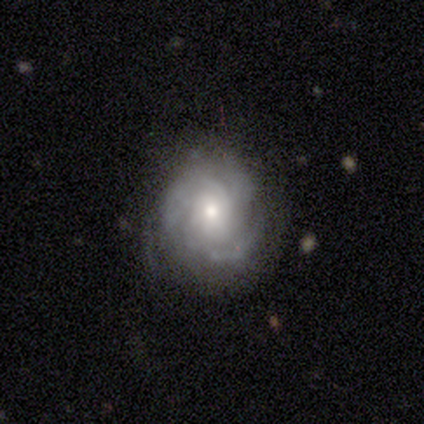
Smooth or featured? 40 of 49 (82%) said featured or disk. Edge-on disk? 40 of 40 (100%) said no. Bar? 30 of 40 (75%) said no. Spiral arms? 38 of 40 (95%) said yes. Spiral winding? 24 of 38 (63%) said tight. Spiral arm count? 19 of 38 (50%) said 3. Bulge size? 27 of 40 (68%) said moderate. Merging? 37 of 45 (82%) said none.